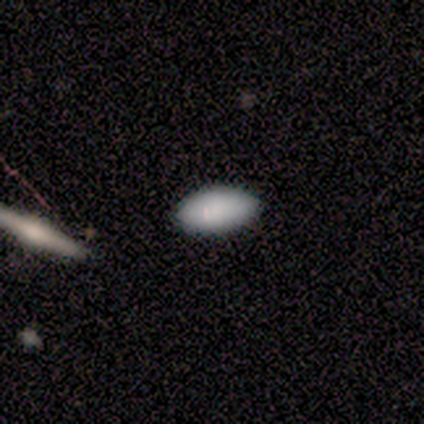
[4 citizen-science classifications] smooth 75%, featured or disk 25%, star or artifact 0%. Down the decision tree: how rounded — in between (100%); merging — none (75%).